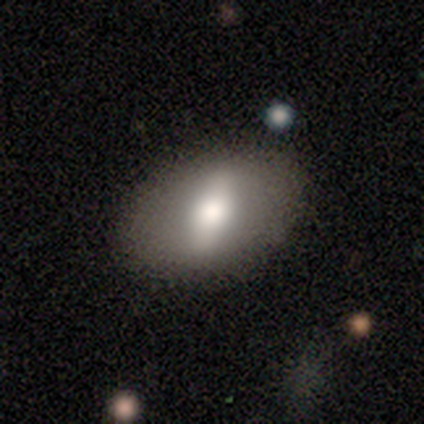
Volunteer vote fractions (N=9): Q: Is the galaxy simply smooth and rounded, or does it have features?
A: smooth — 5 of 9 (56%).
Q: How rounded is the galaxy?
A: in between — 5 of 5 (100%).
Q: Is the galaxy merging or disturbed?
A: none — 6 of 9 (67%).